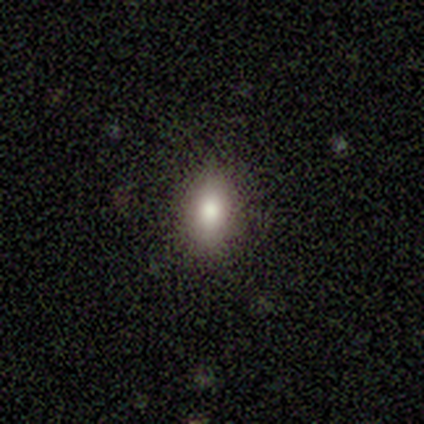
Smooth or featured?
  - smooth: 73% *
  - featured or disk: 13%
  - star or artifact: 13%
How rounded?
  - in between: 82% *
  - round: 18%
  - cigar-shaped: 0%
Merging?
  - none: 85% *
  - minor disturbance: 15%
  - major disturbance: 0%
  - merger: 0%